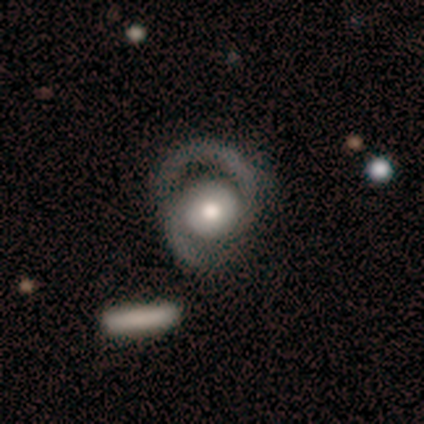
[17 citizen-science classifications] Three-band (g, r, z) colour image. It shows a featured or disk galaxy (94%) with no bar (75%), 2 (94%) medium (75%) spiral arms (100%) and a moderate central bulge (75%). Merging: none (47%).